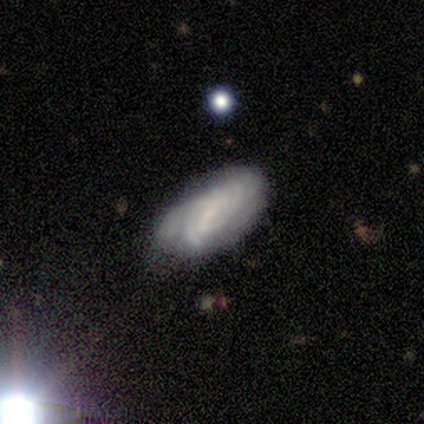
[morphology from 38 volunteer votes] Smooth or featured: featured or disk — 76% (smooth — 18%)
Edge-on disk: no — 97% (yes — 3%)
Bar: weak — 50% (no — 36%)
Spiral arms: yes — 100%
Spiral winding: tight — 64% (medium — 21%)
Spiral arm count: can't tell — 57% (4 — 18%)
Bulge size: small — 64% (none — 21%)
Merging: none — 58% (minor disturbance — 33%)